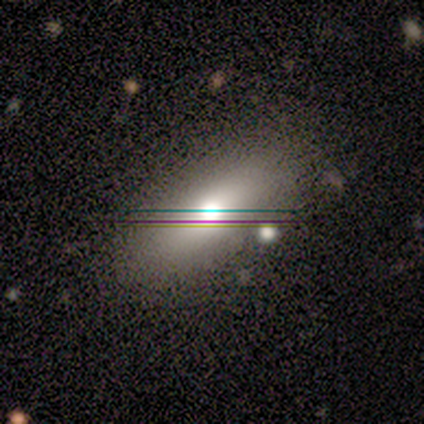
smooth-or-featured: smooth: 54% | featured or disk: 34% | star or artifact: 12%
  how-rounded: in between: 73% | cigar-shaped: 23% | round: 5%
  merging: none: 81% | minor disturbance: 14% | major disturbance: 3% | merger: 3%